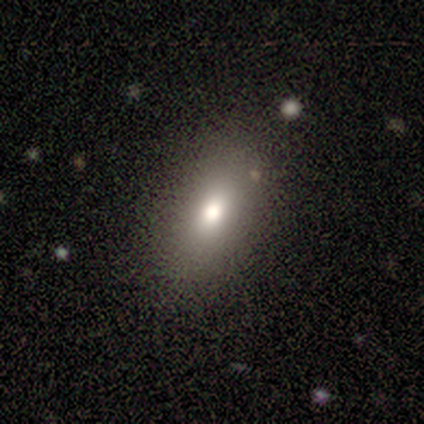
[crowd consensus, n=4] A smooth galaxy with no disk features (50%) that is in between round and cigar-shaped (100%). Merging: none (100%).